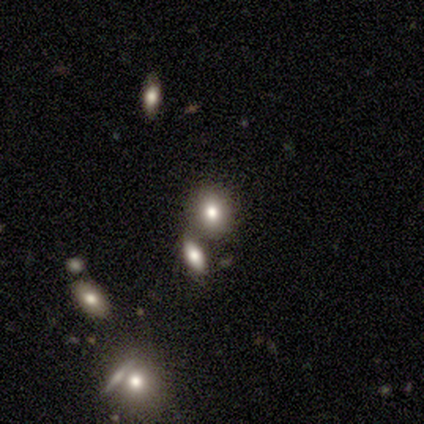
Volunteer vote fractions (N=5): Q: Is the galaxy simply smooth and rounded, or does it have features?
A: smooth — 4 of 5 (80%).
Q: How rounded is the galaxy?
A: in between — 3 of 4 (75%).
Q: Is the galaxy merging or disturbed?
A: none — 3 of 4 (75%).